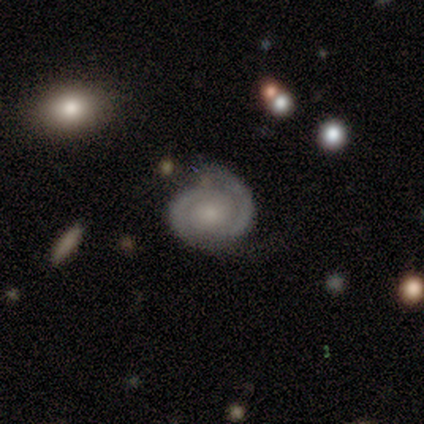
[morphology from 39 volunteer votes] Volunteers were most divided on "bulge size": small: 45%, large: 23%, moderate: 23%, none: 6%, dominant: 3%. More confident: edge-on disk — no (100%); bar — no (90%); spiral arms — yes (87%); spiral arm count — 2 (85%); smooth or featured — featured or disk (79%); merging — none (65%); spiral winding — tight (63%).